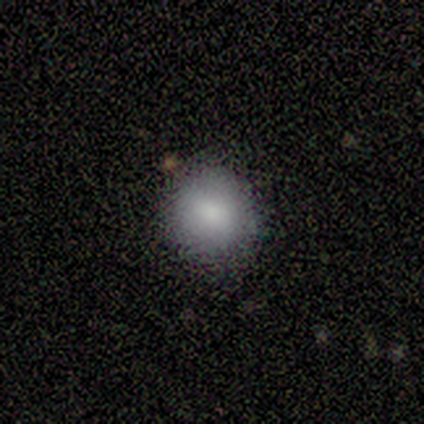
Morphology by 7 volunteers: Smooth or featured? smooth (100%)
How rounded? round (71%)
Merging? none (86%)